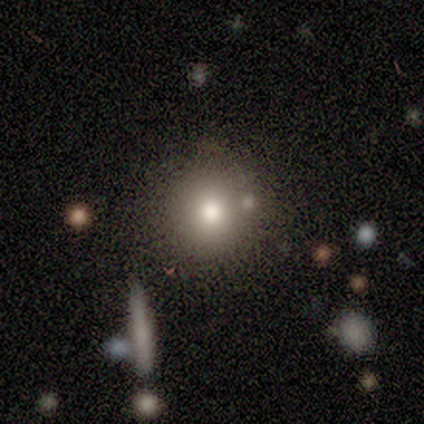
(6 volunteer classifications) Smooth or featured: smooth — 100%
How rounded: round — 100%
Merging: none — 83% (merger — 17%)